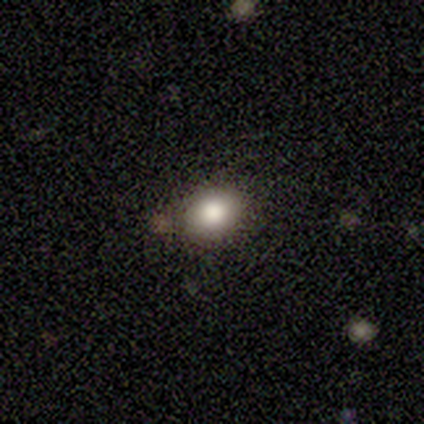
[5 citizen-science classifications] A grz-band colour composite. It shows a smooth galaxy with no disk features (100%) that is round (80%). Merging: none (80%).